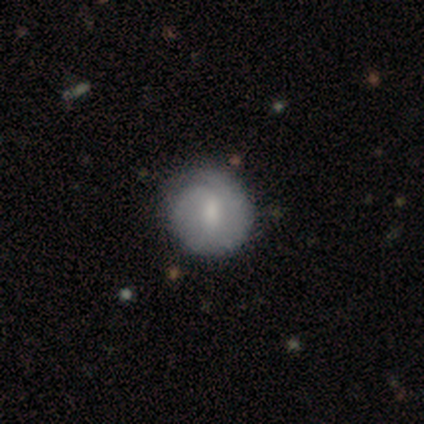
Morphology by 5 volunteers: A featured or disk galaxy (60%) with a weak bar (67%), tight (100%) spiral arms (100%) and a small central bulge (100%). Merging: none (50%, tied with minor disturbance).